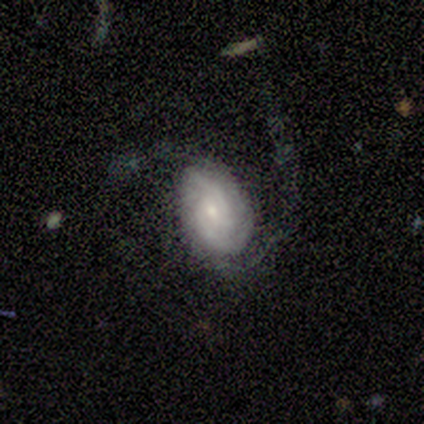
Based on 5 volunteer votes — featured or disk 60%, smooth 40%, star or artifact 0%. Down the decision tree: edge-on disk — no (100%); bar — no (67%); spiral arms — yes (100%); spiral arm count — 2 (67%); spiral winding — tight (33%, tied with medium and loose); bulge size — dominant (33%, tied with moderate and small); merging — major disturbance (60%).